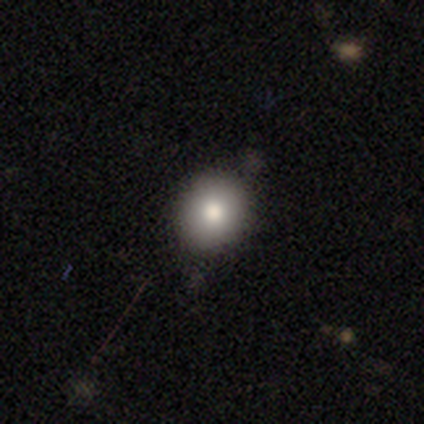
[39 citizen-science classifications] A smooth galaxy with no disk features (77%) that is round (70%). Merging: none (83%).